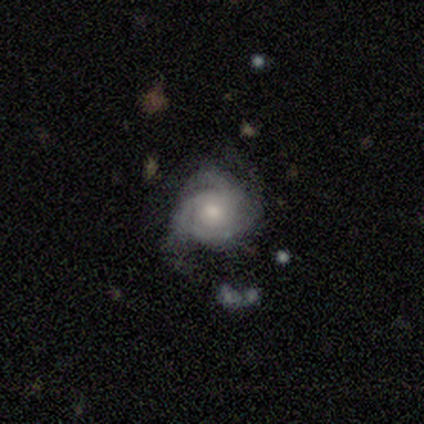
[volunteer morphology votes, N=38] smooth_or_featured: featured or disk (p=0.84) [alt: smooth p=0.11]
disk_edge_on: no (p=0.94) [alt: yes p=0.06]
bar: no (p=0.87) [alt: weak p=0.10]
has_spiral_arms: yes (p=0.97) [alt: no p=0.03]
spiral_winding: tight (p=0.55) [alt: medium p=0.45]
spiral_arm_count: 3 (p=0.48) [alt: can't tell p=0.28]
bulge_size: moderate (p=0.57) [alt: small p=0.33]
merging: none (p=0.56) [alt: minor disturbance p=0.31]